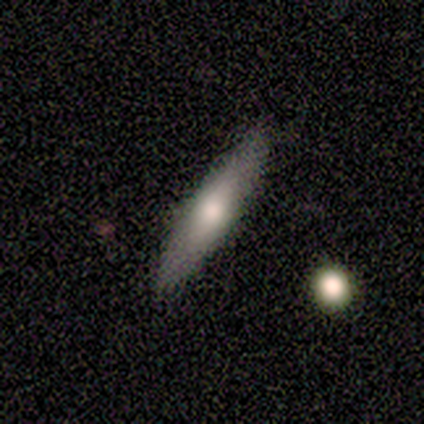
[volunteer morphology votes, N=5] featured or disk 60%, smooth 40%, star or artifact 0%. Down the decision tree: edge-on disk — yes (67%); edge-on bulge — rounded (100%); merging — none (80%).